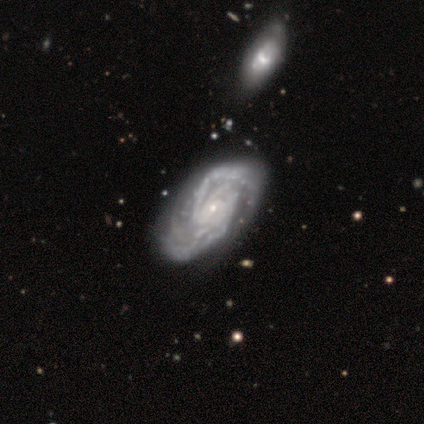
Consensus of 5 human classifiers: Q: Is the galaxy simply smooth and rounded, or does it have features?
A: featured or disk — 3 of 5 (60%).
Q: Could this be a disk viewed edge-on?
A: no — 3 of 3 (100%).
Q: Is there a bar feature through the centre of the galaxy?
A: no — 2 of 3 (67%).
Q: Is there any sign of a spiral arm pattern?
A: yes — 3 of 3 (100%).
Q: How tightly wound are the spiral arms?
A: medium — 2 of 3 (67%).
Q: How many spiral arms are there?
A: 2 — 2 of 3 (67%).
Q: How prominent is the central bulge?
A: small — 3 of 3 (100%).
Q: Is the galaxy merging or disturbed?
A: none — 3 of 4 (75%).